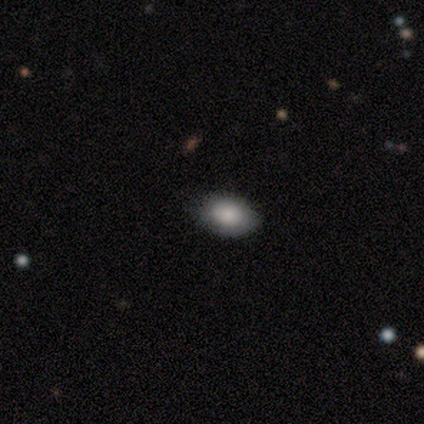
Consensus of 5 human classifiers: This is clearly a smooth galaxy (100%). How rounded: likely in between (60%). Merging: clearly none (100%).